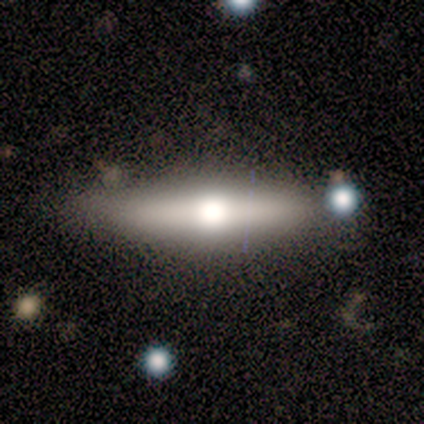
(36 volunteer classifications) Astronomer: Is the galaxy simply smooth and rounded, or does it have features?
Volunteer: featured or disk — 53% (runner-up: smooth, 44%).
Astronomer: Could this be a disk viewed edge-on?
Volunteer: yes — 95%.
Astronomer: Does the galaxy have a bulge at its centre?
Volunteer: rounded — 83%.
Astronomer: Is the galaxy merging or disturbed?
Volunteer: none — 63%.